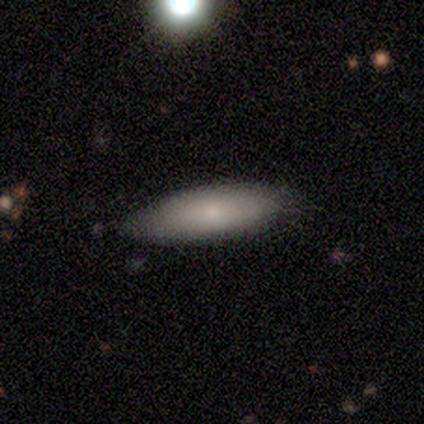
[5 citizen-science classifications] Smooth or featured? 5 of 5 (100%) said smooth. How rounded? 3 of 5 (60%) said in between. Merging? 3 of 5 (60%) said none.